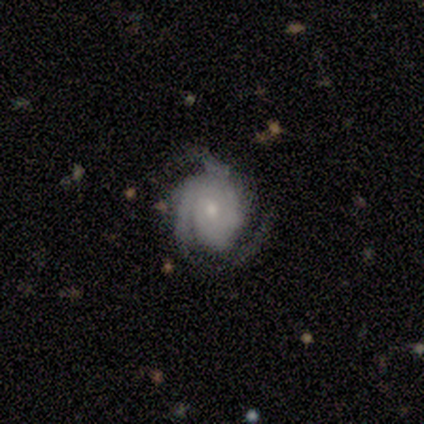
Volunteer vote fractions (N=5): A featured or disk galaxy (100%) with no bar (80%), 3 (80%) tight (60%) spiral arms (100%) and a small central bulge (80%).

Vote fractions:
- Smooth or featured? featured or disk: 100% / smooth: 0% / star or artifact: 0%
- Edge-on disk? no: 100% / yes: 0%
- Bar? no: 80% / weak: 20% / strong: 0%
- Spiral arms? yes: 100% / no: 0%
- Spiral winding? tight: 60% / medium: 40% / loose: 0%
- Spiral arm count? 3: 80% / can't tell: 20% / 1: 0% / 2: 0% / 4: 0% / more than 4: 0%
- Bulge size? small: 80% / moderate: 20% / dominant: 0% / large: 0% / none: 0%
- Merging? none: 60% / minor disturbance: 20% / major disturbance: 20% / merger: 0%